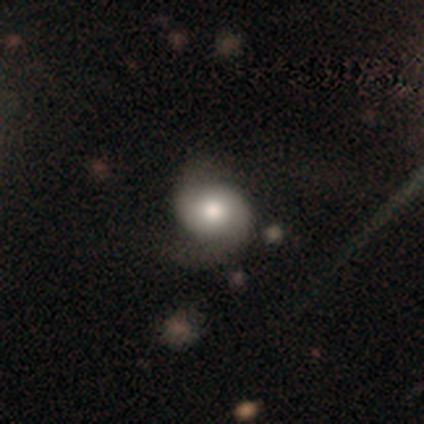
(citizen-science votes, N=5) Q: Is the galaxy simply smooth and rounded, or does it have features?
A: featured or disk — 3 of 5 (60%).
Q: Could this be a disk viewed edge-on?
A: no — 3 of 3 (100%).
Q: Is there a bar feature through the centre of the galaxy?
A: no — 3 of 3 (100%).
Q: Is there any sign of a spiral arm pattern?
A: yes — 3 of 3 (100%).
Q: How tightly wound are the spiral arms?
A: medium — 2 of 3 (67%).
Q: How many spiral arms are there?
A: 2 — 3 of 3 (100%).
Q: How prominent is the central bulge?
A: dominant — 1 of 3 (33%, tied with moderate and small).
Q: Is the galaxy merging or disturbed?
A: none — 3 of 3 (100%).